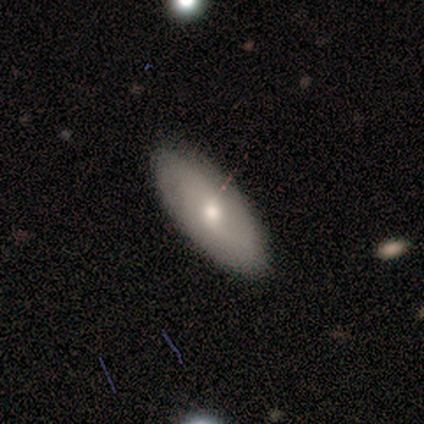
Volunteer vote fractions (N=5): Smooth or featured?
  - smooth: 80% *
  - featured or disk: 20%
  - star or artifact: 0%
How rounded?
  - in between: 100% *
  - round: 0%
  - cigar-shaped: 0%
Merging?
  - none: 100% *
  - minor disturbance: 0%
  - major disturbance: 0%
  - merger: 0%